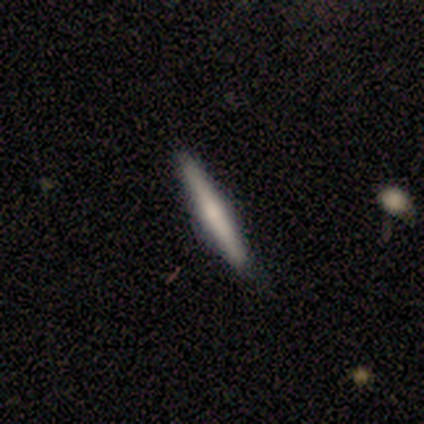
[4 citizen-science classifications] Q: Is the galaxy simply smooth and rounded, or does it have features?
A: featured or disk — 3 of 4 (75%).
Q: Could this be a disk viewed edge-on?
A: yes — 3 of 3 (100%).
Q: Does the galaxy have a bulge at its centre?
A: rounded — 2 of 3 (67%).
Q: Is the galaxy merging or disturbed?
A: none — 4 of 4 (100%).